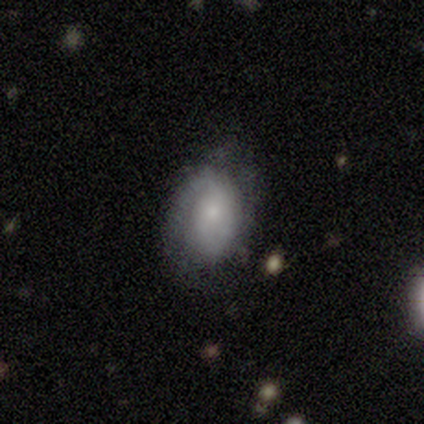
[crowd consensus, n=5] smooth-or-featured: smooth: 40% (tied) | featured or disk: 40% (tied) | star or artifact: 20%
  how-rounded: in between: 100% | round: 0% | cigar-shaped: 0%
  merging: minor disturbance: 75% | none: 25% | major disturbance: 0% | merger: 0%